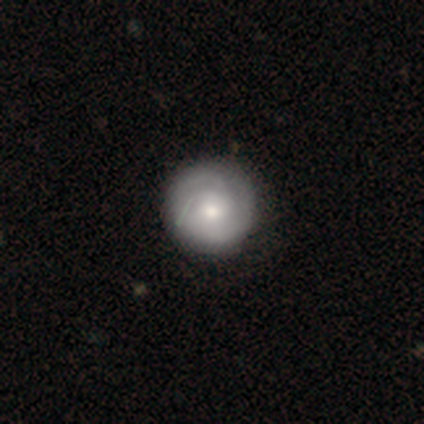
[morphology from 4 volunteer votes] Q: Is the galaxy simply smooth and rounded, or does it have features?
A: smooth — 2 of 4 (50%, tied with featured or disk).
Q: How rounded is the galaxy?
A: round — 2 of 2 (100%).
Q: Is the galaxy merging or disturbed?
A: none — 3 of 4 (75%).